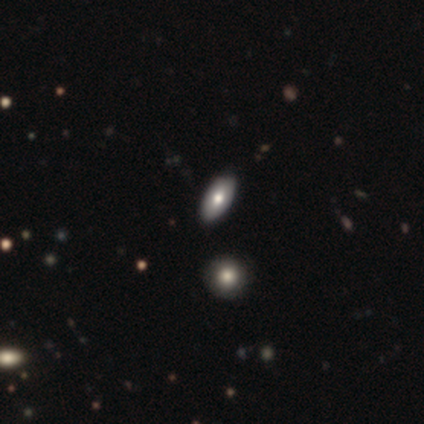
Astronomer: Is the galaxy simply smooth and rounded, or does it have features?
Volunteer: smooth — 80%.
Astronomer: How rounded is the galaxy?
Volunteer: in between — 100%.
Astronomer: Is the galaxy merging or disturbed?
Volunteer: none — 60%.